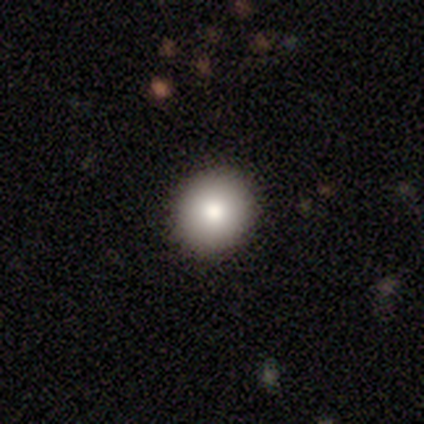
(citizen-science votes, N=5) A smooth galaxy with no disk features (100%) that is round (100%). Merging: none (100%).